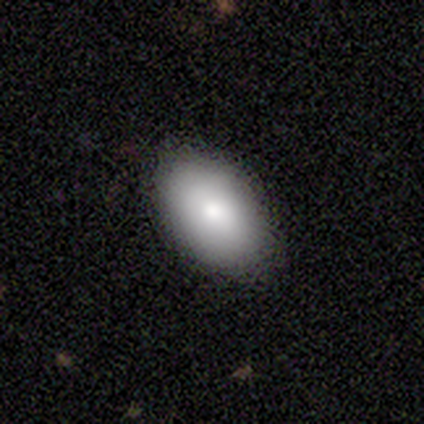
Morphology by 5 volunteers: Smooth or featured: smooth — 100%
How rounded: in between — 100%
Merging: none — 100%